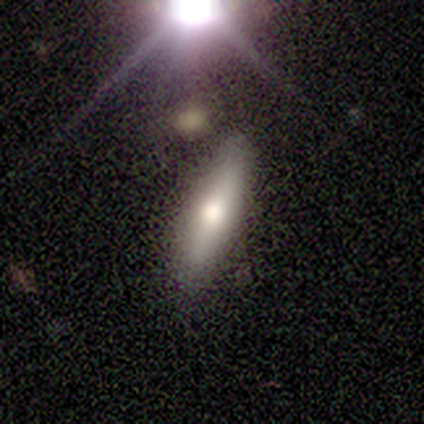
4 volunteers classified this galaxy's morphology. smooth-or-featured: smooth: 50% | featured or disk: 25% | star or artifact: 25%
  how-rounded: in between: 50% (tied) | cigar-shaped: 50% (tied) | round: 0%
  merging: none: 100% | minor disturbance: 0% | major disturbance: 0% | merger: 0%